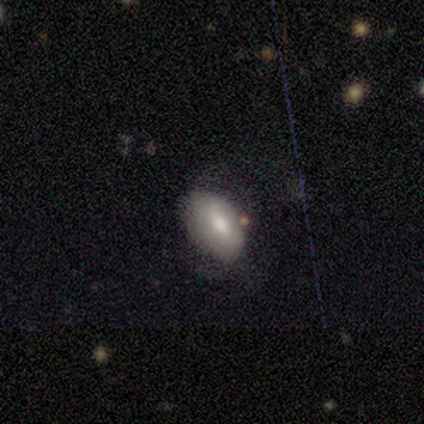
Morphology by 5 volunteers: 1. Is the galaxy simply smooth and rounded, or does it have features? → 80% smooth, 20% featured or disk, 0% star or artifact.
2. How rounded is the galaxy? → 75% in between, 25% round, 0% cigar-shaped.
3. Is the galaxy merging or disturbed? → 60% none, 20% minor disturbance, 20% major disturbance, 0% merger.